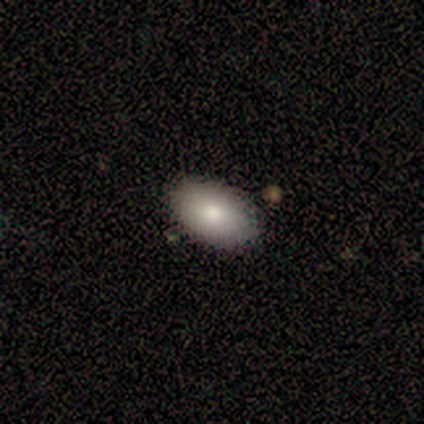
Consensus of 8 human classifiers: smooth_or_featured: smooth (p=0.75) [alt: featured or disk p=0.25]
how_rounded: in between (p=1.00)
merging: none (p=0.88) [alt: major disturbance p=0.12]